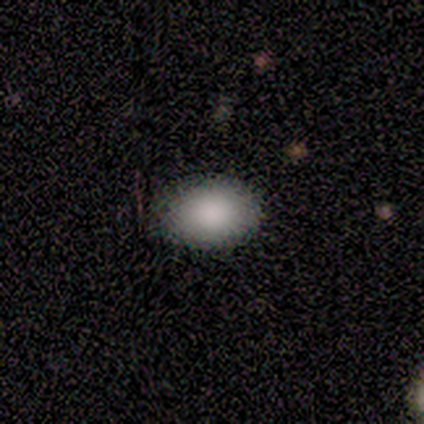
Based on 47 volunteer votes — smooth-or-featured: smooth: 87% | featured or disk: 6% | star or artifact: 6%
  how-rounded: in between: 78% | round: 22% | cigar-shaped: 0%
  merging: none: 91% | minor disturbance: 9% | major disturbance: 0% | merger: 0%